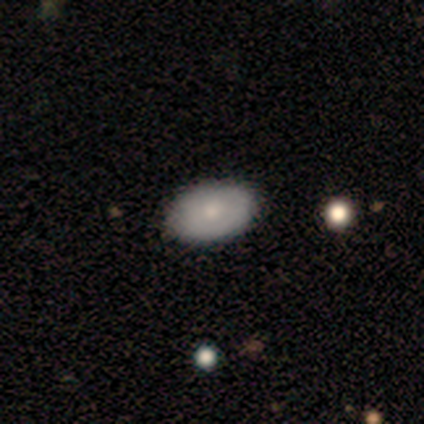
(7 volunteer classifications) Overall: smooth (71%). How rounded: in between (80%). Merging: none (100%).